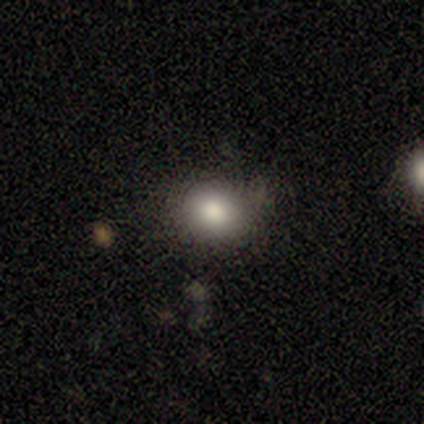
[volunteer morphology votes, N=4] A smooth galaxy with no disk features (75%) that is round (67%). Merging: minor disturbance (67%).